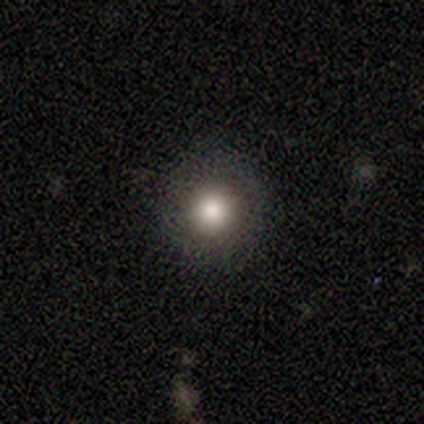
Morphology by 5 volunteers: Smooth or featured? smooth (80%)
How rounded? round (100%)
Merging? none (75%)